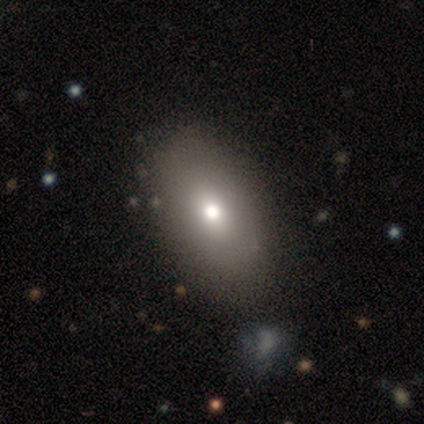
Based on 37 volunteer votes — Q: Smooth or featured?
A: smooth (76%); runner-up: featured or disk (19%)
Q: How rounded?
A: in between (82%); runner-up: round (18%)
Q: Merging?
A: none (51%); runner-up: major disturbance (3%)